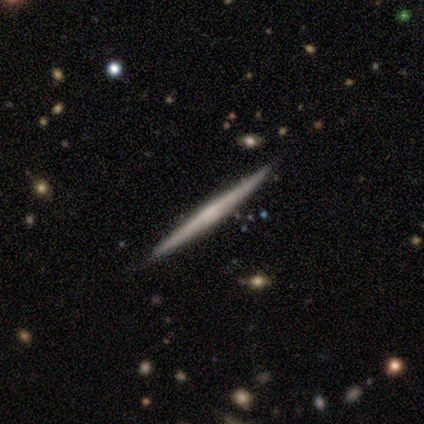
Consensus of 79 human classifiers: Volunteers were most divided on "edge-on bulge": none: 62%, rounded: 29%, boxy: 10%. Remaining: edge-on disk — yes (100%); smooth or featured — featured or disk (66%); merging — none (45%).